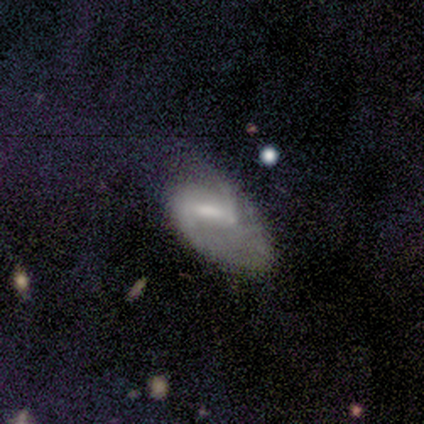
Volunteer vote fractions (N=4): Smooth or featured: smooth — 75% (featured or disk — 25%)
How rounded: in between — 100%
Merging: minor disturbance — 50% (none — 25%)